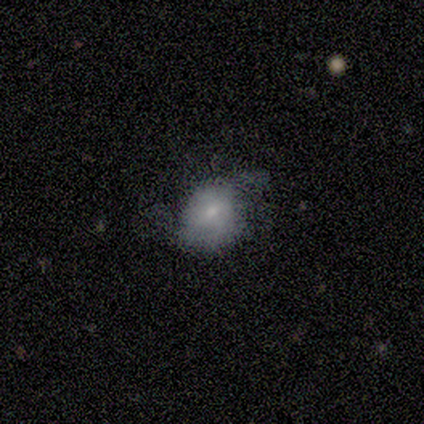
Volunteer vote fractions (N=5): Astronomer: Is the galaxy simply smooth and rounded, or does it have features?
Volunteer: smooth — 60% (runner-up: featured or disk, 40%).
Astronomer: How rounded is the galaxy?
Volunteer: in between — 67%.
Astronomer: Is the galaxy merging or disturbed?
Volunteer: minor disturbance — 60%.